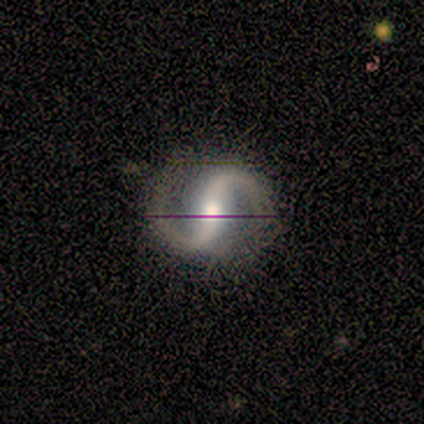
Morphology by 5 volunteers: Overall: featured or disk (100%). Edge-on disk: no (100%). Bar: strong (60%; weak 20%). Spiral arms: yes (100%). Spiral arm count: 2 (100%). Spiral winding: medium (80%). Bulge size: moderate (100%). Merging: none (80%).